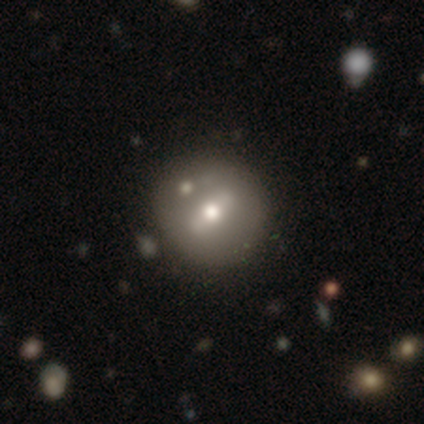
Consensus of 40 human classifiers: Smooth or featured? 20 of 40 (50%) said featured or disk. Edge-on disk? 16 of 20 (80%) said no. Bar? 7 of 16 (44%) said weak. Spiral arms? 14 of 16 (88%) said no. Bulge size? 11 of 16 (69%) said moderate. Merging? 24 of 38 (63%) said none.